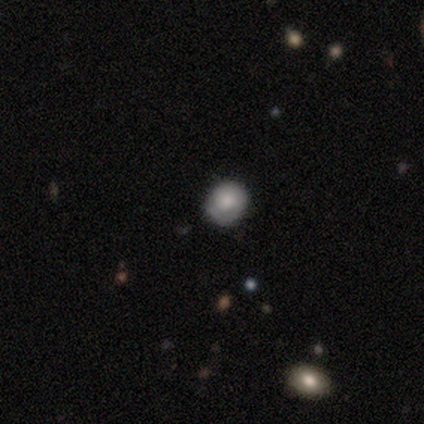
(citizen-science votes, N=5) smooth-or-featured: smooth: 100% | featured or disk: 0% | star or artifact: 0%
  how-rounded: round: 80% | in between: 20% | cigar-shaped: 0%
  merging: none: 100% | minor disturbance: 0% | major disturbance: 0% | merger: 0%